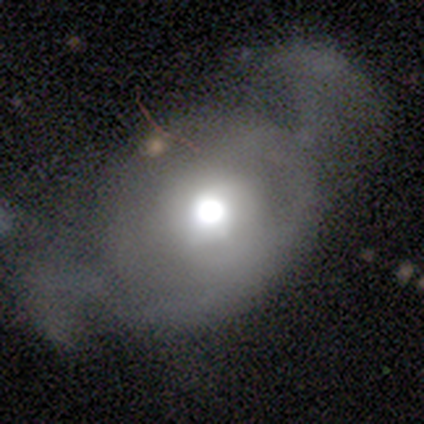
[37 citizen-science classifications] Morphology: type=featured or disk (46%); edge-on=no (88%); bar=no (93%); spiral arms=no (80%); bulge=large (53%); merging=major disturbance (47%).